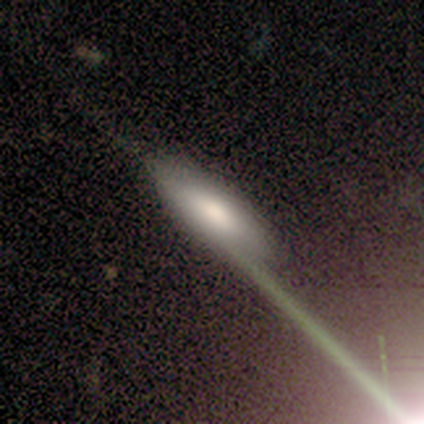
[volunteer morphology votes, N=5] Overall: smooth (40%, tied with featured or disk). How rounded: in between (100%). Merging: none (50%, tied with minor disturbance).